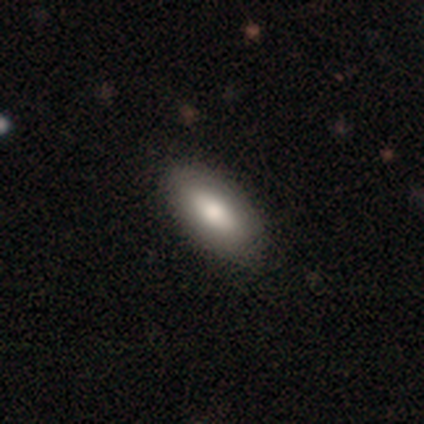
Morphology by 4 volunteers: Smooth or featured?
  - smooth: 100% *
  - featured or disk: 0%
  - star or artifact: 0%
How rounded?
  - in between: 100% *
  - round: 0%
  - cigar-shaped: 0%
Merging?
  - none: 50% * (tied)
  - minor disturbance: 50% * (tied)
  - major disturbance: 0%
  - merger: 0%